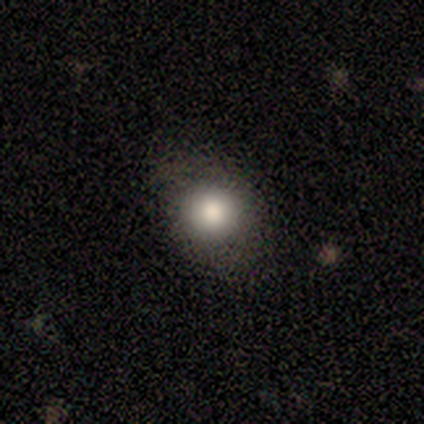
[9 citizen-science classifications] Morphology: type=smooth (78%); roundness=round (71%); merging=none (71%).